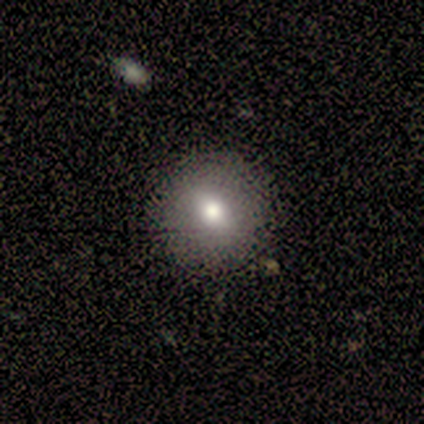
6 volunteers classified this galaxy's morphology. smooth-or-featured: smooth: 100% | featured or disk: 0% | star or artifact: 0%
  how-rounded: round: 83% | in between: 17% | cigar-shaped: 0%
  merging: none: 100% | minor disturbance: 0% | major disturbance: 0% | merger: 0%